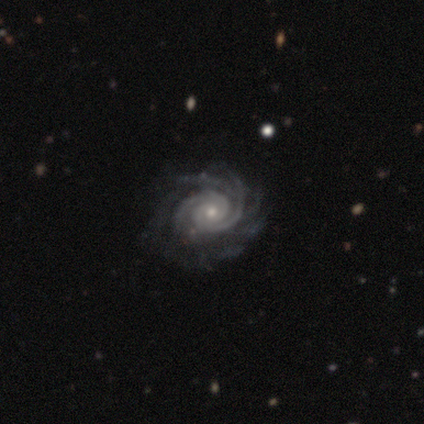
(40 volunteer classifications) smooth_or_featured: featured or disk (p=0.93) [alt: smooth p=0.07]
disk_edge_on: no (p=1.00)
bar: no (p=0.78) [alt: weak p=0.19]
has_spiral_arms: yes (p=1.00)
spiral_winding: tight (p=0.76) [alt: medium p=0.16]
spiral_arm_count: 2 (p=0.46) [alt: more than 4 p=0.24]
bulge_size: moderate (p=0.49) [alt: small p=0.46]
merging: none (p=0.50) [alt: minor disturbance p=0.05]